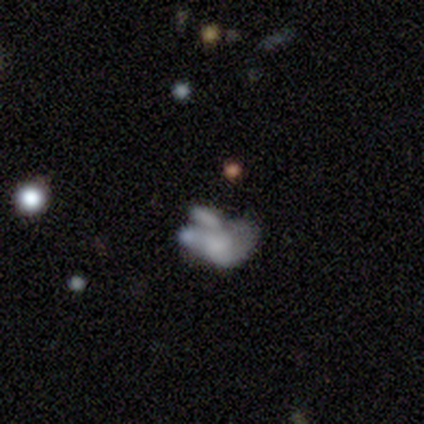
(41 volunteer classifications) Smooth or featured? featured or disk (49%)
Edge-on disk? no (100%)
Bar? no (100%)
Spiral arms? no (90%)
Bulge size? none (60%)
Merging? merger (50%)